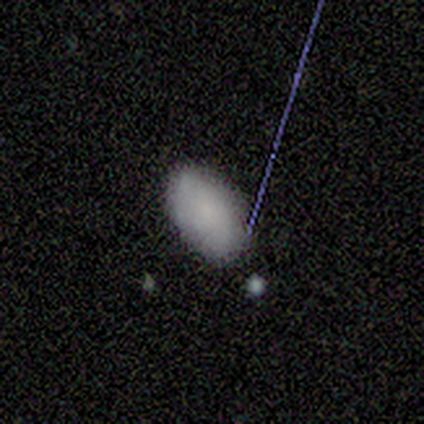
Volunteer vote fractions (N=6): A smooth galaxy with no disk features (83%) that is in between round and cigar-shaped (80%). Merging: none (83%).